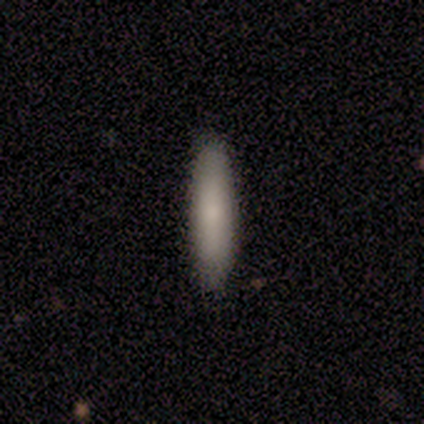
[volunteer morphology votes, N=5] Overall: smooth (60%; featured or disk 40%). How rounded: cigar-shaped (100%). Merging: none (100%).